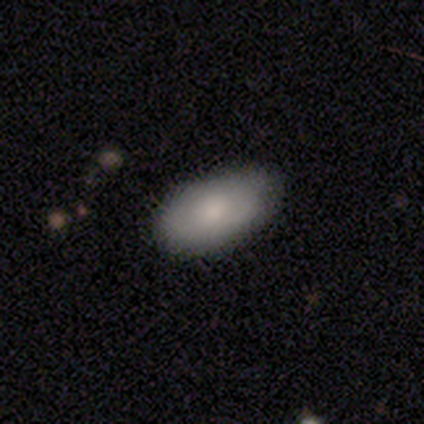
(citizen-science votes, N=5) Smooth or featured?
  - smooth: 80% *
  - featured or disk: 20%
  - star or artifact: 0%
How rounded?
  - in between: 100% *
  - round: 0%
  - cigar-shaped: 0%
Merging?
  - none: 100% *
  - minor disturbance: 0%
  - major disturbance: 0%
  - merger: 0%